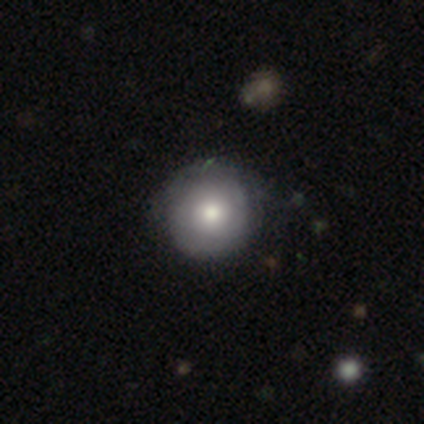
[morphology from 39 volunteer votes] smooth-or-featured: smooth: 59% | featured or disk: 38% | star or artifact: 3%
  how-rounded: round: 96% | in between: 4% | cigar-shaped: 0%
  merging: none: 58% | minor disturbance: 5% | merger: 3% | major disturbance: 0%